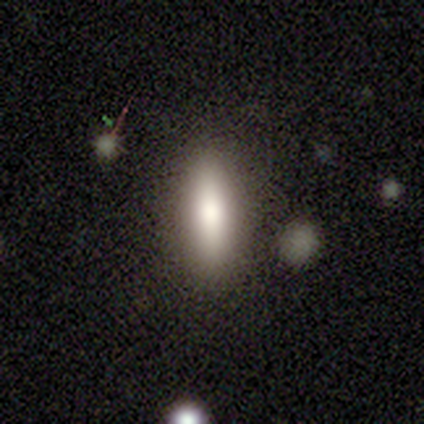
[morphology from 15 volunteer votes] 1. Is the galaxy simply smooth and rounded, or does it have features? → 93% smooth, 7% featured or disk, 0% star or artifact.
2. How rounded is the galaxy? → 71% cigar-shaped, 29% in between, 0% round.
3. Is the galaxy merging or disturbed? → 100% none, 0% minor disturbance, 0% major disturbance, 0% merger.